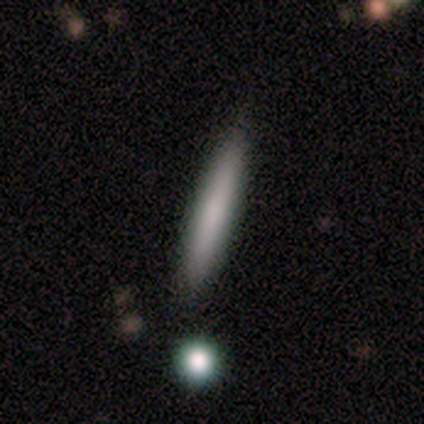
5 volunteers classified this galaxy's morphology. A smooth galaxy with no disk features (80%) that is cigar-shaped (100%). Merging: none (75%).